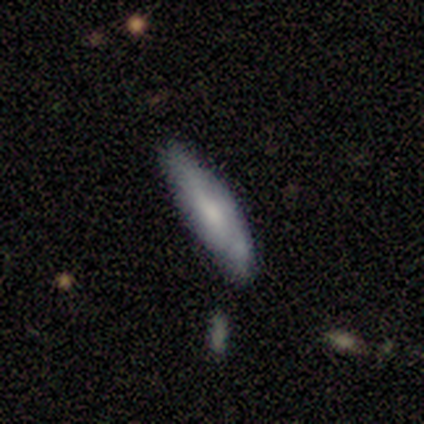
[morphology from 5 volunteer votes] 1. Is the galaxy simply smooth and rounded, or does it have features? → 40% smooth (tied), 40% featured or disk (tied), 20% star or artifact.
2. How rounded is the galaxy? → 100% cigar-shaped, 0% round, 0% in between.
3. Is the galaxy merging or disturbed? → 75% none, 25% minor disturbance, 0% major disturbance, 0% merger.